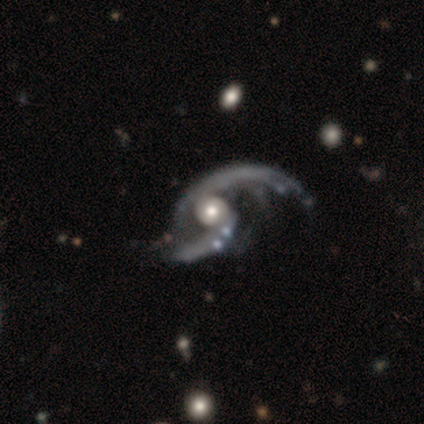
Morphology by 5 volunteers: This appears to be a featured or disk galaxy (100%) with no bar (100%), 2 (80%) loose (80%) spiral arms (100%) and a moderate central bulge (60%). Merging: major disturbance (80%).